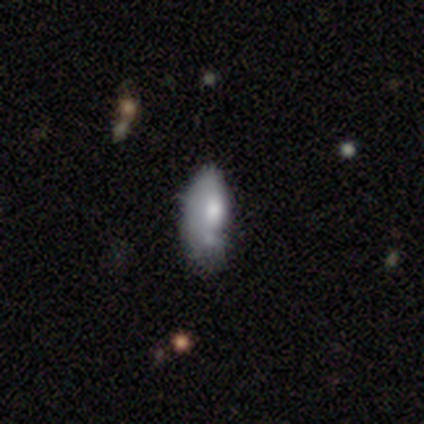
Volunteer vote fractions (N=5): Q: Smooth or featured?
A: smooth (100%)
Q: How rounded?
A: in between (100%)
Q: Merging?
A: none (40%); tied with: minor disturbance (40%)